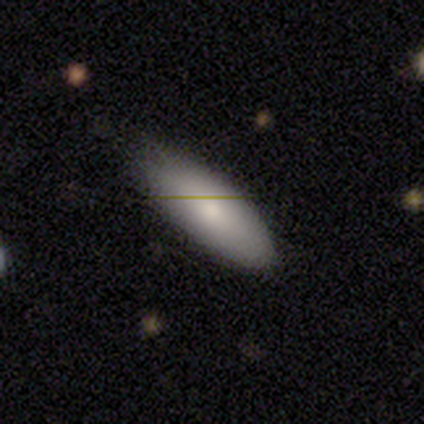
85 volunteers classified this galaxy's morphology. Smooth or featured: smooth — 80% (featured or disk — 14%)
How rounded: in between — 81% (cigar-shaped — 19%)
Merging: none — 66% (minor disturbance — 31%)